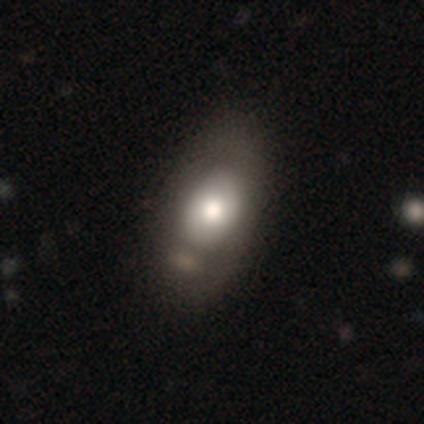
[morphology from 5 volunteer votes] smooth-or-featured: smooth: 60% | featured or disk: 40% | star or artifact: 0%
  how-rounded: in between: 100% | round: 0% | cigar-shaped: 0%
  merging: none: 60% | minor disturbance: 20% | major disturbance: 20% | merger: 0%